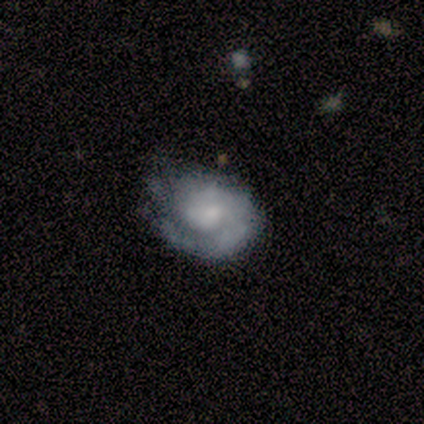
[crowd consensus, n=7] Overall: featured or disk (86%). Edge-on disk: no (100%). Bar: weak (50%, tied with no). Spiral arms: yes (100%). Spiral arm count: 1 (83%). Spiral winding: medium (67%). Bulge size: small (50%; moderate 33%). Merging: none (71%).